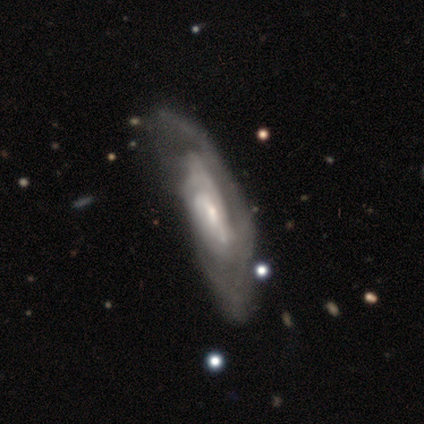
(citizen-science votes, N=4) Smooth or featured? featured or disk (100%)
Edge-on disk? no (75%)
Bar? strong (33%, tied with weak and no)
Spiral arms? yes (100%)
Spiral winding? tight (33%, tied with medium and loose)
Spiral arm count? can't tell (67%)
Bulge size? small (67%)
Merging? major disturbance (75%)